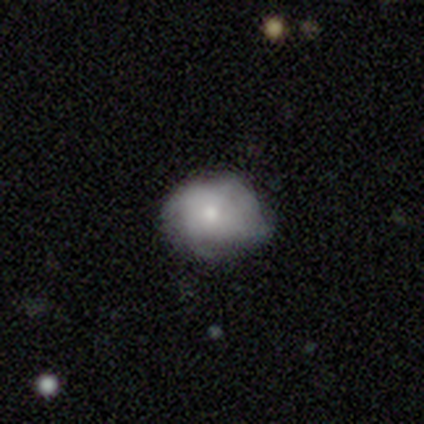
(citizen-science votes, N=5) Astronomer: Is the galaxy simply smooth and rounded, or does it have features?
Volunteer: featured or disk — 60%.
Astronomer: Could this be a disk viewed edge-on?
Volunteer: no — 100%.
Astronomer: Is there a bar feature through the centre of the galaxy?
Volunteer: no — 67%.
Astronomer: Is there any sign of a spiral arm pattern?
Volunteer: no — 67%.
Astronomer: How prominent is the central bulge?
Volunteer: small — 67%.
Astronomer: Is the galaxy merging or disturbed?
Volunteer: minor disturbance — 50%.